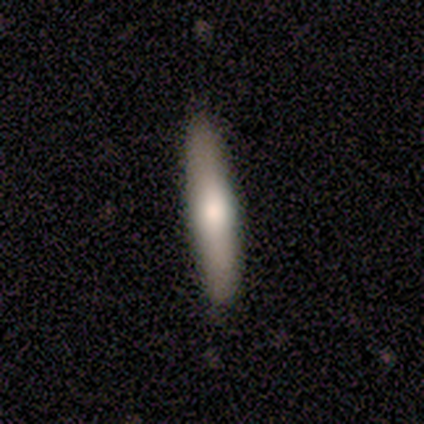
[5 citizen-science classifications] Smooth or featured? featured or disk (60%)
Edge-on disk? yes (100%)
Edge-on bulge? rounded (100%)
Merging? none (60%)